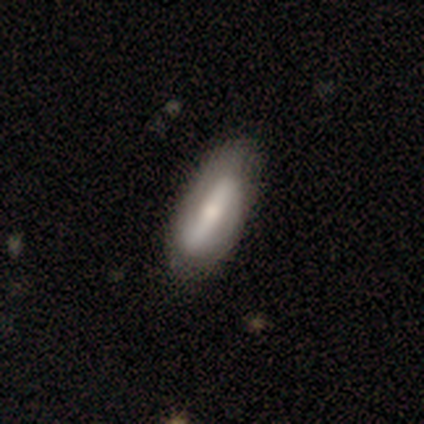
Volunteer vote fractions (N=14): A smooth galaxy with no disk features (57%) that is in between round and cigar-shaped (75%).

Vote fractions:
- Smooth or featured? smooth: 57% / featured or disk: 43% / star or artifact: 0%
- How rounded? in between: 75% / cigar-shaped: 25% / round: 0%
- Merging? none: 86% / minor disturbance: 14% / major disturbance: 0% / merger: 0%